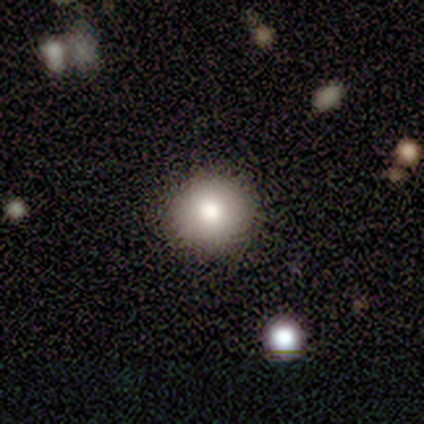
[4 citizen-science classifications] This is likely a smooth galaxy (75%). How rounded: clearly round (100%). Merging: clearly none (100%).